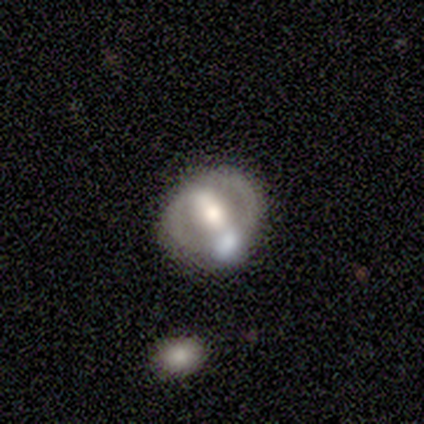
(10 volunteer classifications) featured or disk 100%, smooth 0%, star or artifact 0%. Down the decision tree: edge-on disk — no (90%); bar — strong (44%); spiral arms — no (67%); bulge size — moderate (44%); merging — none (40%).